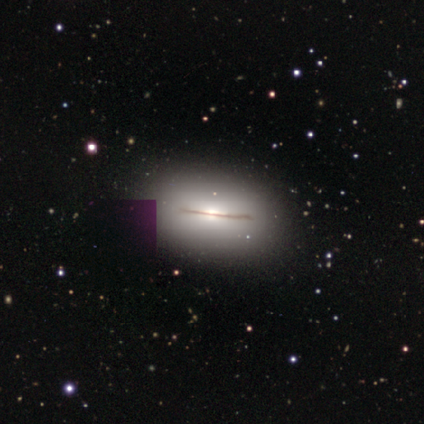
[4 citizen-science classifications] smooth_or_featured: smooth (p=0.50) [tied with: featured or disk p=0.50]
how_rounded: in between (p=1.00)
merging: none (p=0.50) [tied with: minor disturbance p=0.50]